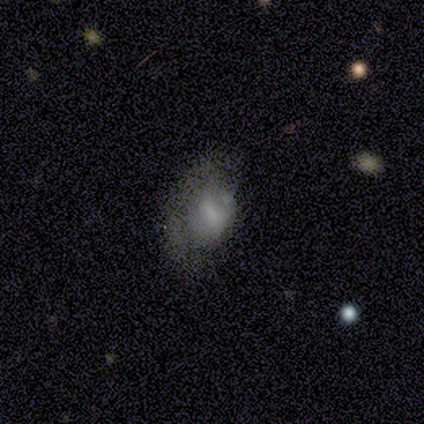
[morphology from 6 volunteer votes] Overall: smooth (67%; featured or disk 33%). How rounded: round (75%). Merging: major disturbance (50%; none 33%).